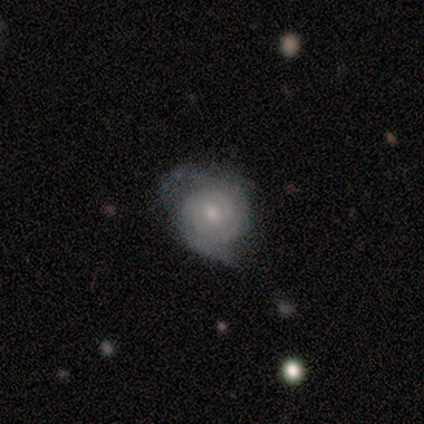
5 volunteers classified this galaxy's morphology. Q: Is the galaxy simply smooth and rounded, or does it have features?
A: featured or disk — 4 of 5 (80%).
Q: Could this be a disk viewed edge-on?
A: no — 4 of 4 (100%).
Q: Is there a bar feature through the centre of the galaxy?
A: no — 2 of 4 (50%).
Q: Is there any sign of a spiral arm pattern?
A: yes — 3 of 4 (75%).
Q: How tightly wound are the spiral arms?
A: tight — 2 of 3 (67%).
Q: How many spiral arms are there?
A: can't tell — 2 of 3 (67%).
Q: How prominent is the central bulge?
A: moderate — 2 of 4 (50%).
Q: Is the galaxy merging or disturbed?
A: none — 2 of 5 (40%, tied with minor disturbance).